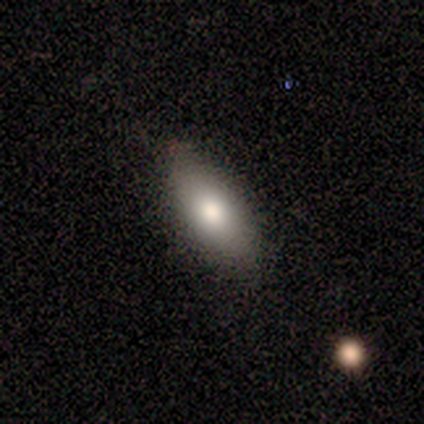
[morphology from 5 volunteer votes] A smooth galaxy with no disk features (80%) that is cigar-shaped (50%).

Vote fractions:
- Smooth or featured? smooth: 80% / featured or disk: 20% / star or artifact: 0%
- How rounded? cigar-shaped: 50% / round: 25% / in between: 25%
- Merging? none: 80% / minor disturbance: 20% / major disturbance: 0% / merger: 0%